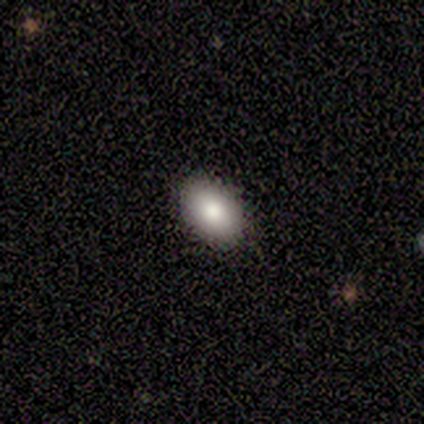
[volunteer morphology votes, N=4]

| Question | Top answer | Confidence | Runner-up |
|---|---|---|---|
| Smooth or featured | smooth | 75% | featured or disk (25%) |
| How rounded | in between | 100% | — |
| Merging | none | 100% | — |